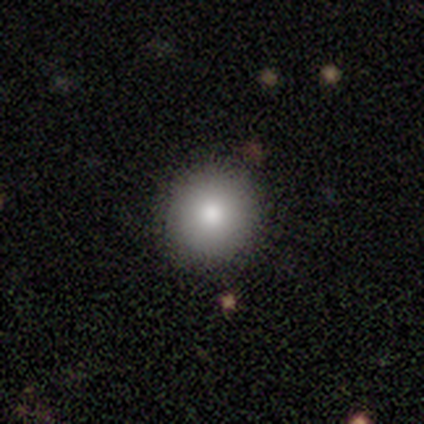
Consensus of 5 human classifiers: Morphology: type=smooth (100%); roundness=round (100%); merging=none (100%).